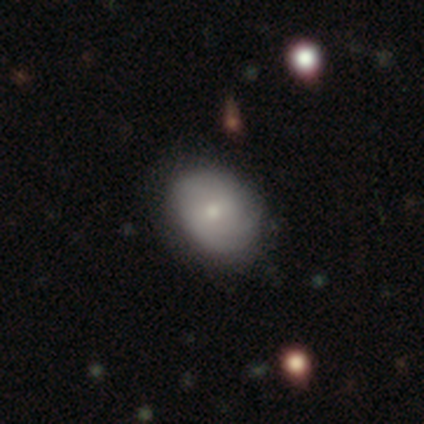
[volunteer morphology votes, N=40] Smooth or featured? smooth (60%)
How rounded? in between (54%)
Merging? none (55%)